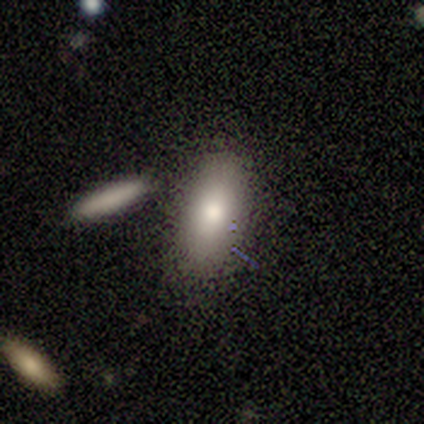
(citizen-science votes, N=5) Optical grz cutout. It shows a smooth galaxy with no disk features (100%) that is in between round and cigar-shaped (80%). Merging: none (80%).